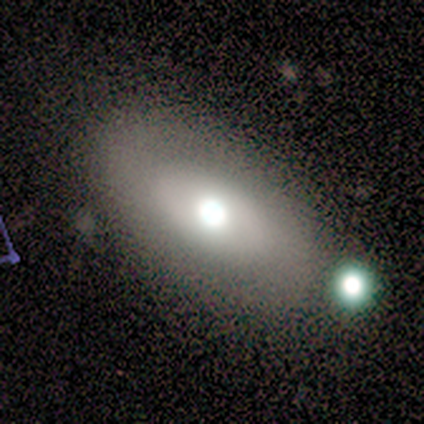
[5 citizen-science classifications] smooth_or_featured: smooth (p=0.60) [alt: featured or disk p=0.40]
how_rounded: in between (p=1.00)
merging: none (p=0.80) [alt: merger p=0.20]